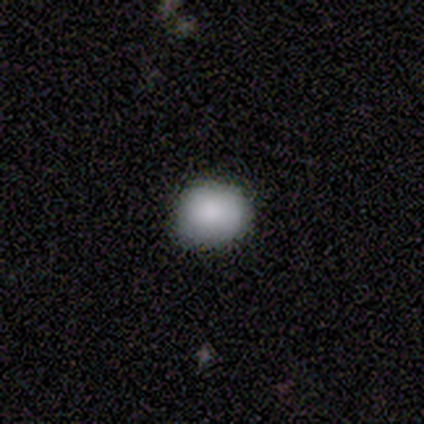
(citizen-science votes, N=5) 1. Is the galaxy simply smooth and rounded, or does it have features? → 100% smooth, 0% featured or disk, 0% star or artifact.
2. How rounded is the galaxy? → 100% round, 0% in between, 0% cigar-shaped.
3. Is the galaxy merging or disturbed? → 60% none, 40% minor disturbance, 0% major disturbance, 0% merger.